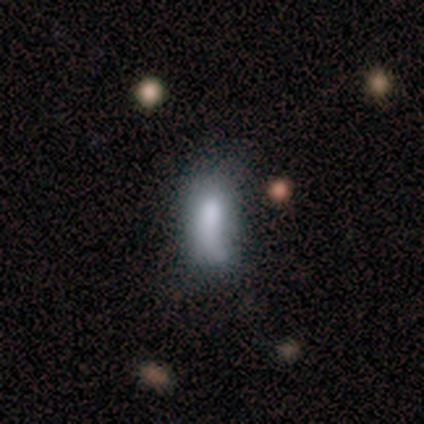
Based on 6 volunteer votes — Smooth or featured: smooth — 67% (star or artifact — 33%)
How rounded: in between — 100%
Merging: major disturbance — 50% (none — 25%)